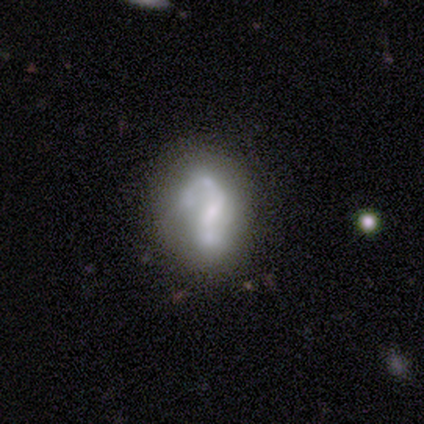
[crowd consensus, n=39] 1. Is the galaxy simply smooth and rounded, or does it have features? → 69% featured or disk, 31% smooth, 0% star or artifact.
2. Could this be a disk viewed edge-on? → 100% no, 0% yes.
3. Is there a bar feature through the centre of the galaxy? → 48% weak, 37% no, 15% strong.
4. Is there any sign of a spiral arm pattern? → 56% yes, 44% no.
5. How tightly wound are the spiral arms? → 47% loose, 33% medium, 20% tight.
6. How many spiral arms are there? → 60% 2, 40% 1, 0% 3, 0% 4, 0% more than 4, 0% can't tell.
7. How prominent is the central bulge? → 44% small, 30% none, 22% moderate, 4% dominant, 0% large.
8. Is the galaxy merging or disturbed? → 49% none, 21% major disturbance, 18% minor disturbance, 13% merger.